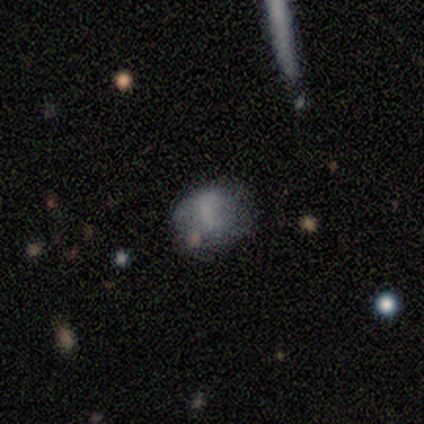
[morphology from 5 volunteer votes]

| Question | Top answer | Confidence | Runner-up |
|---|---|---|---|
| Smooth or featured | featured or disk | 40% | tied: star or artifact (40%) |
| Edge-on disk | no | 100% | — |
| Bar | no | 100% | — |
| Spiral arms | no | 100% | — |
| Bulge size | none | 100% | — |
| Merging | none | 100% | — |